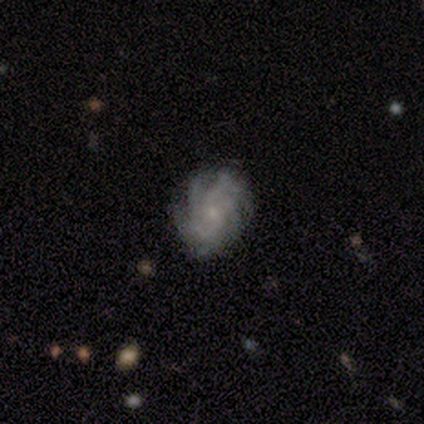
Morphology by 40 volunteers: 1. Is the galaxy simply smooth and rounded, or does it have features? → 85% featured or disk, 12% smooth, 2% star or artifact.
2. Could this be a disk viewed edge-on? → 100% no, 0% yes.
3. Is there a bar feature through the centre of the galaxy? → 79% no, 15% weak, 6% strong.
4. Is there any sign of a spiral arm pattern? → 97% yes, 3% no.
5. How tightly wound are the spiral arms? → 64% tight, 24% medium, 12% loose.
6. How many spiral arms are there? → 48% more than 4, 30% can't tell, 12% 4, 9% 3, 0% 1, 0% 2.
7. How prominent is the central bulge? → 82% small, 9% none, 6% moderate, 3% large, 0% dominant.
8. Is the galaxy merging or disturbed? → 77% none, 18% minor disturbance, 5% major disturbance, 0% merger.